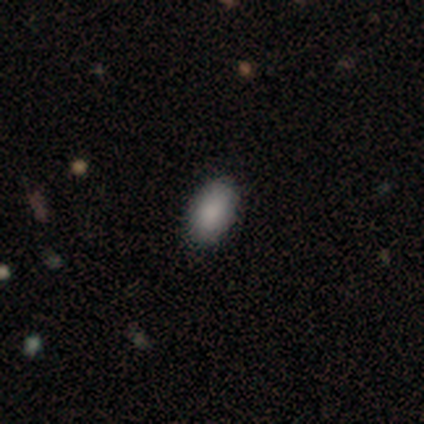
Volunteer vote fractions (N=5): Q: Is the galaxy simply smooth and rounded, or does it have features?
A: smooth — 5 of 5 (100%).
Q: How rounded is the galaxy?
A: in between — 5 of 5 (100%).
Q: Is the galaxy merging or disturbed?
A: none — 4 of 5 (80%).